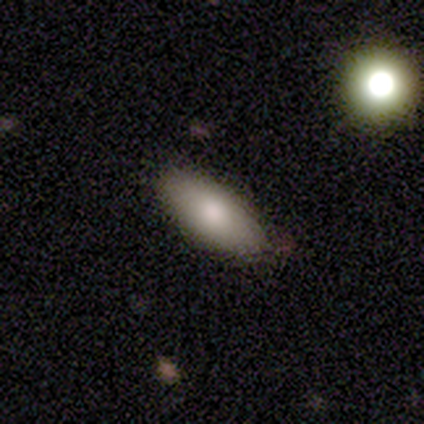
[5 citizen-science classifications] Morphology: type=smooth (100%); roundness=in between (80%); merging=none (60%).